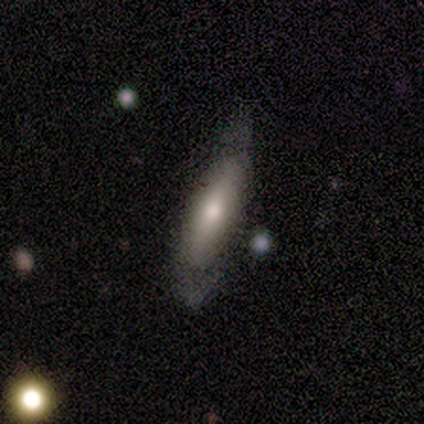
Morphology: type=featured or disk (71%); edge-on=no (80%); bar=no (50%); spiral arms=yes (75%); winding=medium (67%); arm count=2 (67%); bulge=moderate (50%, tied with small); merging=none (57%).